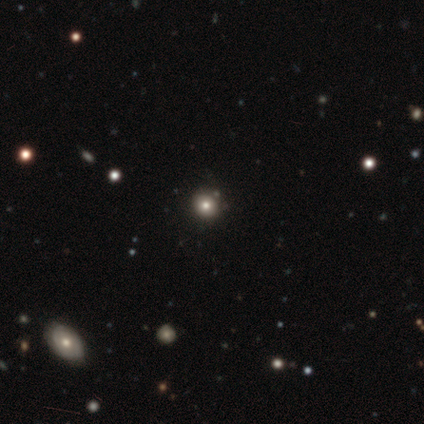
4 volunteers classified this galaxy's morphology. This appears to be a smooth galaxy with no disk features (50%, tied with star or artifact) that is round (100%). Merging: none (100%).